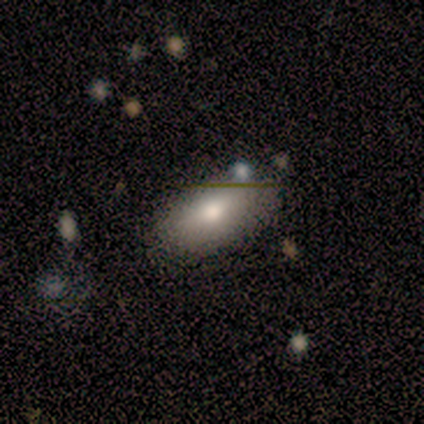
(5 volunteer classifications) This is marginally a smooth galaxy (40%, tied with featured or disk). How rounded: clearly in between (100%). Merging: possibly minor disturbance (50%).